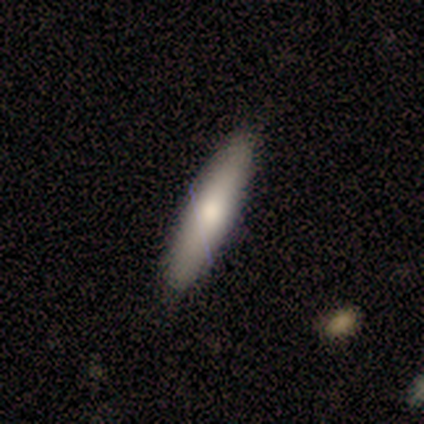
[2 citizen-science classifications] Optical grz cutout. It shows a smooth galaxy with no disk features (100%) that is cigar-shaped (100%). Merging: none (100%).